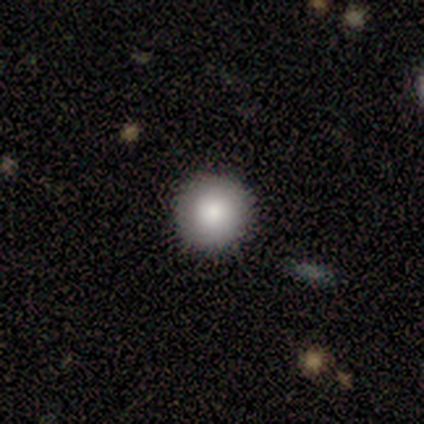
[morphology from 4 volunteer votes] smooth-or-featured: smooth: 100% | featured or disk: 0% | star or artifact: 0%
  how-rounded: round: 100% | in between: 0% | cigar-shaped: 0%
  merging: none: 100% | minor disturbance: 0% | major disturbance: 0% | merger: 0%